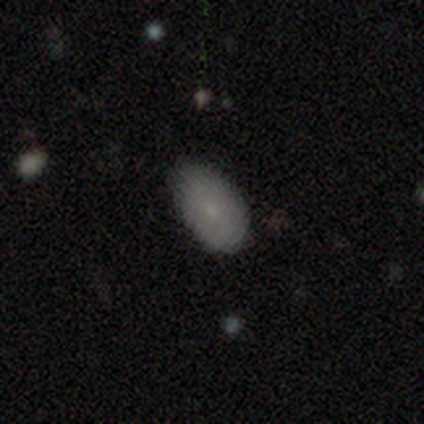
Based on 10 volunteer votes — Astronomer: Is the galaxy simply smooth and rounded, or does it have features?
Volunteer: smooth — 80%.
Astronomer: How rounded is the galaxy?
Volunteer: in between — 88%.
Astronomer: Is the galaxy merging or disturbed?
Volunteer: none — 100%.